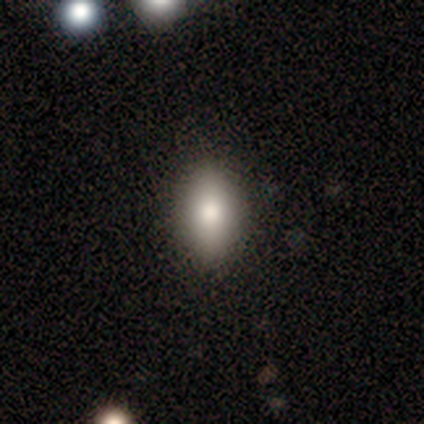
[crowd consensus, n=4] Morphology: type=smooth (75%); roundness=in between (100%); merging=none (75%).